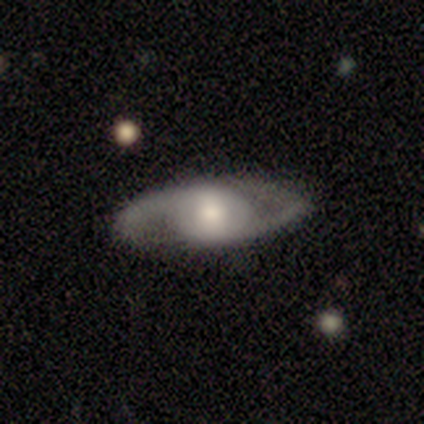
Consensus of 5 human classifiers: Overall: featured or disk (100%). Edge-on disk: no (60%; yes 40%). Bar: no (67%; weak 33%). Spiral arms: yes (100%). Spiral arm count: 2 (100%). Spiral winding: medium (67%; loose 33%). Bulge size: moderate (100%). Merging: none (100%).